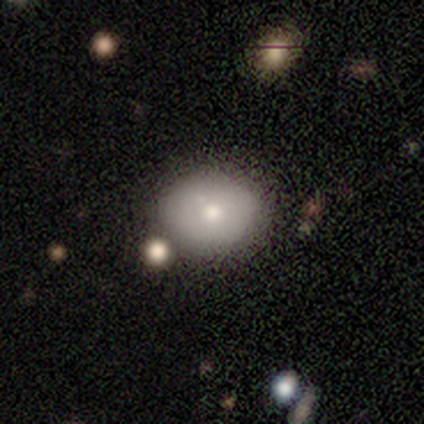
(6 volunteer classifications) Q: Smooth or featured?
A: smooth (100%)
Q: How rounded?
A: round (50%); tied with: in between (50%)
Q: Merging?
A: none (83%); runner-up: minor disturbance (17%)